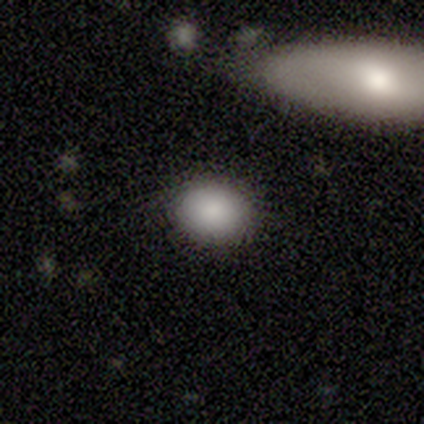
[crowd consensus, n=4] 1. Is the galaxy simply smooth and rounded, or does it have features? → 75% smooth, 25% star or artifact, 0% featured or disk.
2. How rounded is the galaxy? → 100% round, 0% in between, 0% cigar-shaped.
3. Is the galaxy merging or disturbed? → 100% none, 0% minor disturbance, 0% major disturbance, 0% merger.